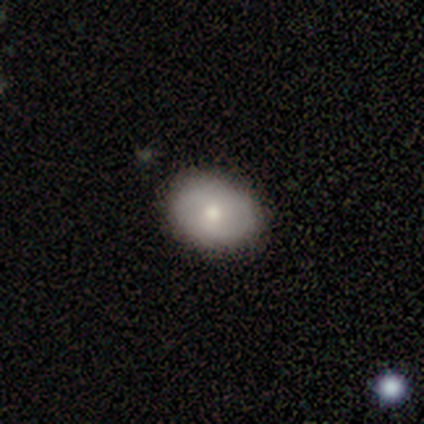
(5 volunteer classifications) smooth_or_featured: smooth (p=0.60) [alt: featured or disk p=0.40]
how_rounded: in between (p=0.67) [alt: round p=0.33]
merging: none (p=1.00)